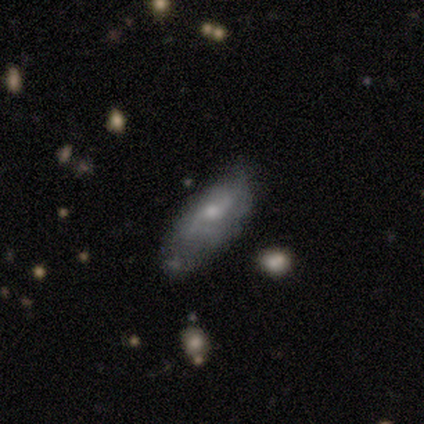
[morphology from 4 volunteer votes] Smooth or featured?
  - featured or disk: 50% *
  - smooth: 25%
  - star or artifact: 25%
Edge-on disk?
  - no: 100% *
  - yes: 0%
Bar?
  - no: 100% *
  - strong: 0%
  - weak: 0%
Spiral arms?
  - yes: 100% *
  - no: 0%
Spiral winding?
  - medium: 50% * (tied)
  - loose: 50% * (tied)
  - tight: 0%
Spiral arm count?
  - 2: 50% * (tied)
  - can't tell: 50% * (tied)
  - 1: 0%
  - 3: 0%
  - 4: 0%
  - more than 4: 0%
Bulge size?
  - moderate: 50% * (tied)
  - small: 50% * (tied)
  - dominant: 0%
  - large: 0%
  - none: 0%
Merging?
  - none: 33% * (tied)
  - minor disturbance: 33% * (tied)
  - merger: 33% * (tied)
  - major disturbance: 0%